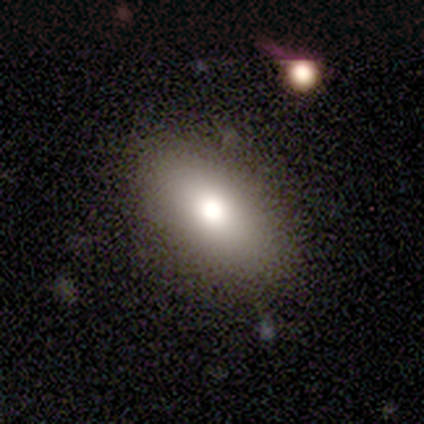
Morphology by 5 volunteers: Overall: smooth (80%). How rounded: in between (100%). Merging: none (100%).